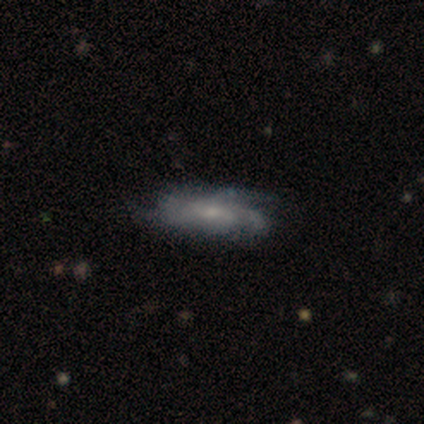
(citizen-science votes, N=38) This is likely a featured or disk galaxy (79%). It is clearly not viewed edge-on (97%). Bar: likely no (79%). Spiral arm pattern: clearly yes (93%). Spiral arm count: possibly can't tell (59%). Spiral winding: likely medium (63%). Central bulge: likely small (69%). Merging: possibly none (46%).